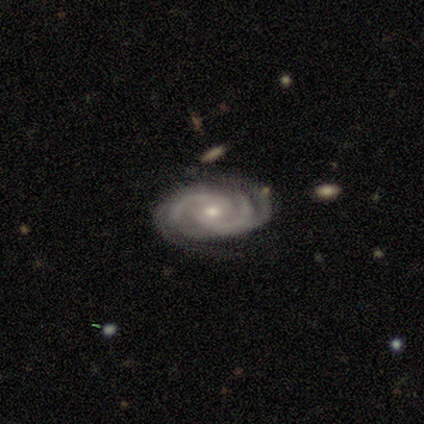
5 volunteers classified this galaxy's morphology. A featured or disk galaxy (100%) with no bar (60%), 2 (40%, tied with 4) tight (60%) spiral arms (100%) and a small central bulge (80%).

Vote fractions:
- Smooth or featured? featured or disk: 100% / smooth: 0% / star or artifact: 0%
- Edge-on disk? no: 100% / yes: 0%
- Bar? no: 60% / weak: 40% / strong: 0%
- Spiral arms? yes: 100% / no: 0%
- Spiral winding? tight: 60% / medium: 40% / loose: 0%
- Spiral arm count? 2: 40% (tied) / 4: 40% (tied) / can't tell: 20% / 1: 0% / 3: 0% / more than 4: 0%
- Bulge size? small: 80% / moderate: 20% / dominant: 0% / large: 0% / none: 0%
- Merging? none: 100% / minor disturbance: 0% / major disturbance: 0% / merger: 0%